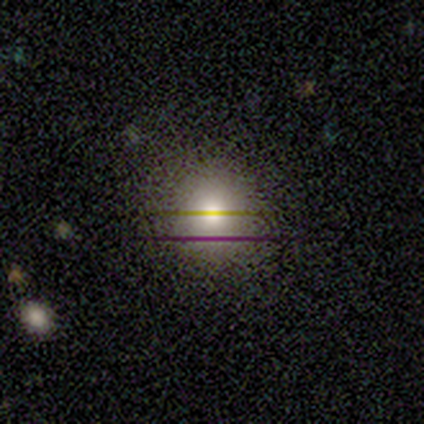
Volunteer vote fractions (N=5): Morphology: type=smooth (40%, tied with featured or disk); roundness=round (100%); merging=none (100%).